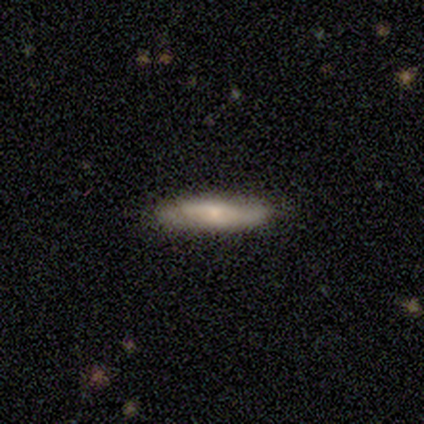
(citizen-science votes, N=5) Smooth or featured? 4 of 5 (80%) said smooth. How rounded? 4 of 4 (100%) said cigar-shaped. Merging? 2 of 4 (50%, tied with minor disturbance) said none.